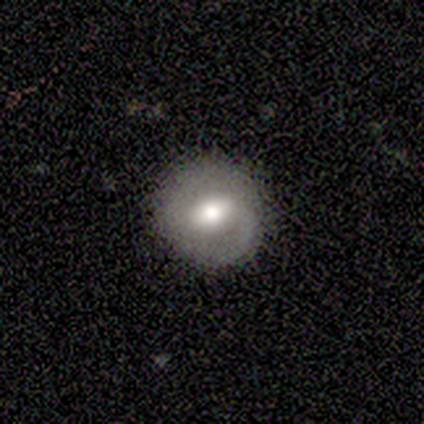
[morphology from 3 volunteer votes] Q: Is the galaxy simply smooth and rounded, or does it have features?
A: smooth — 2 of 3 (67%).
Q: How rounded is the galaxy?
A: round — 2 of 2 (100%).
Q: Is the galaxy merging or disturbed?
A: none — 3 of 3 (100%).